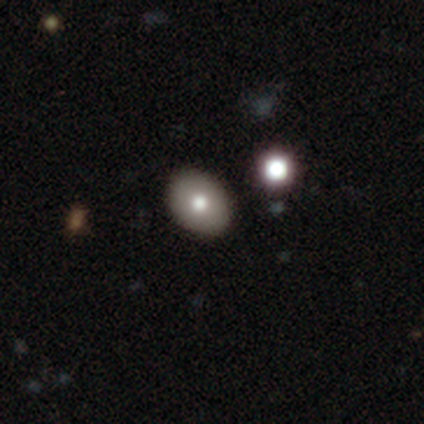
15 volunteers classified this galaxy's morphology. smooth 87%, featured or disk 7%, star or artifact 7%. Down the decision tree: how rounded — in between (62%); merging — none (100%).